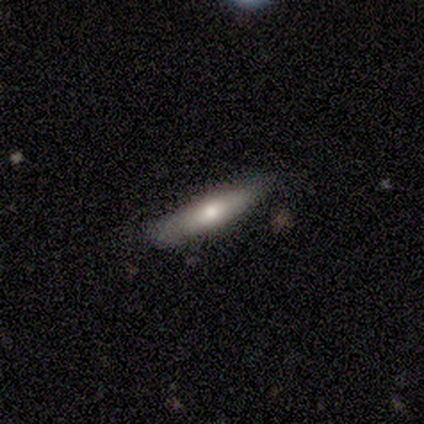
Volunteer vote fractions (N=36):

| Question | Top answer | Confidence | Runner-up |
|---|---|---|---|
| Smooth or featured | smooth | 50% | featured or disk (44%) |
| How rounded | cigar-shaped | 78% | in between (22%) |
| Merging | none | 82% | minor disturbance (15%) |